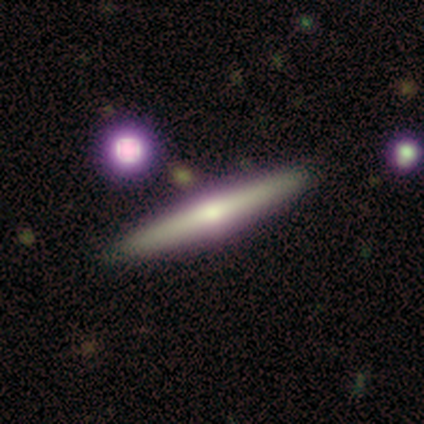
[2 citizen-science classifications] Volunteers were most divided on "edge-on disk" (2-way tie): yes: 50%, no: 50%. More confident: smooth or featured — featured or disk (100%); edge-on bulge — none (100%); merging — none (100%).